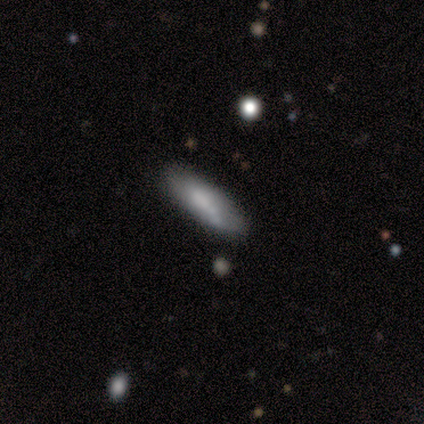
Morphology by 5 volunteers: Smooth or featured?
  - smooth: 80% *
  - featured or disk: 20%
  - star or artifact: 0%
How rounded?
  - cigar-shaped: 100% *
  - round: 0%
  - in between: 0%
Merging?
  - none: 60% *
  - minor disturbance: 40%
  - major disturbance: 0%
  - merger: 0%